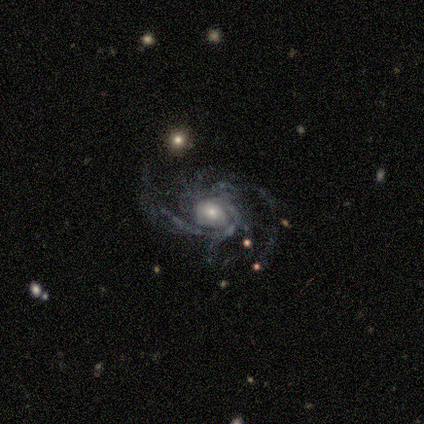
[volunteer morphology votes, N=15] featured or disk 100%, smooth 0%, star or artifact 0%. Down the decision tree: edge-on disk — no (100%); bar — no (100%); spiral arms — yes (100%); spiral arm count — 2 (60%); spiral winding — medium (80%); bulge size — moderate (60%); merging — none (67%).